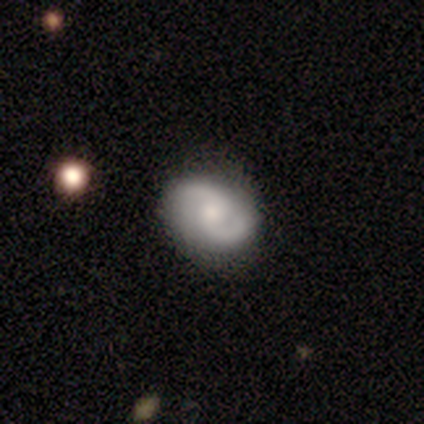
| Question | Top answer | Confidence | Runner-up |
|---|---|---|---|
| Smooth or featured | featured or disk | 77% | smooth (13%) |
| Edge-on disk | no | 87% | yes (13%) |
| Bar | no | 54% | weak (38%) |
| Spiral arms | yes | 100% | — |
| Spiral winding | tight | 38% | medium (31%) |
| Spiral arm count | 2 | 100% | — |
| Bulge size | moderate | 58% | small (35%) |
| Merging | none | 80% | minor disturbance (17%) |